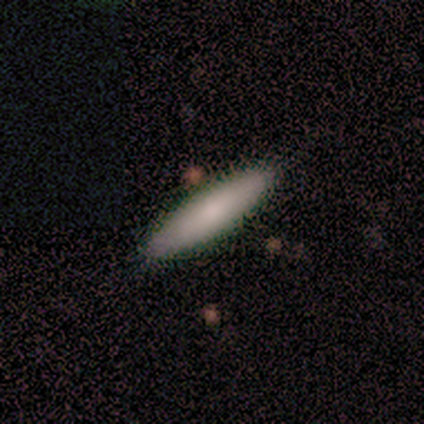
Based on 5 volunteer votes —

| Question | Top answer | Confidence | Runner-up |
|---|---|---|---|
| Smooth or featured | smooth | 60% | featured or disk (20%) |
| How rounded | cigar-shaped | 67% | in between (33%) |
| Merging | none | 75% | minor disturbance (25%) |